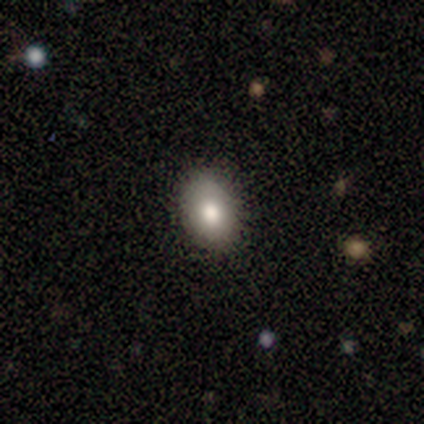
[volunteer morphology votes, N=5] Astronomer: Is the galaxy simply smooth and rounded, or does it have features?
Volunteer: smooth — 100%.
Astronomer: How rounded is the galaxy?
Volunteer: in between — 60% (runner-up: round, 40%).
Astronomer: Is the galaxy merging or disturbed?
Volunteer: none — 80%.